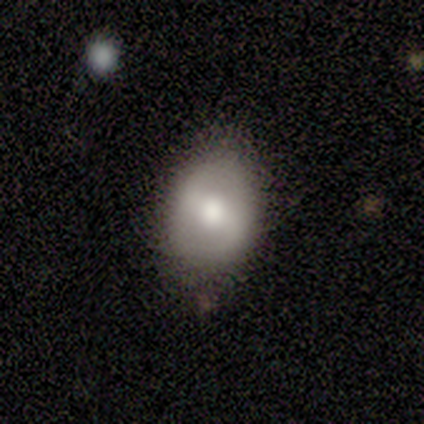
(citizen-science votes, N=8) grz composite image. It shows a smooth galaxy with no disk features (62%) that is in between round and cigar-shaped (60%). Merging: none (62%).